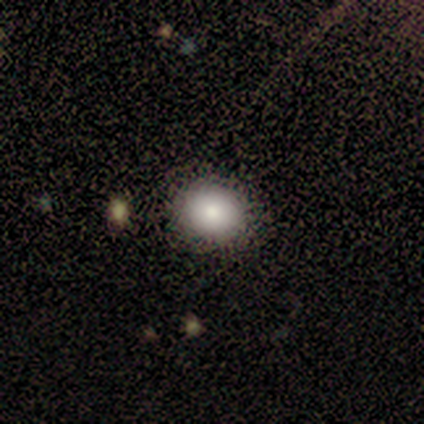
Smooth or featured?
  - smooth: 100% *
  - featured or disk: 0%
  - star or artifact: 0%
How rounded?
  - in between: 57% *
  - round: 43%
  - cigar-shaped: 0%
Merging?
  - none: 71% *
  - major disturbance: 29%
  - minor disturbance: 0%
  - merger: 0%